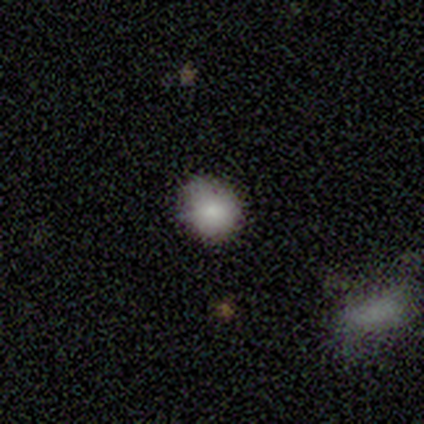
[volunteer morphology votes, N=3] smooth-or-featured: smooth: 67% | star or artifact: 33% | featured or disk: 0%
  how-rounded: round: 100% | in between: 0% | cigar-shaped: 0%
  merging: none: 100% | minor disturbance: 0% | major disturbance: 0% | merger: 0%